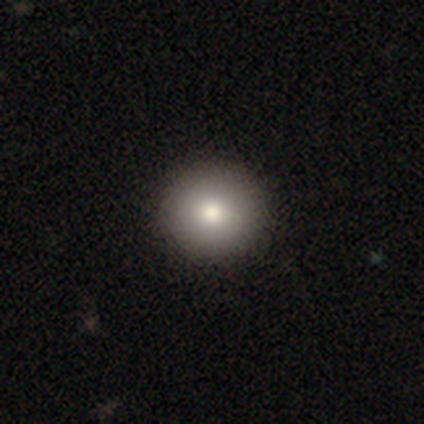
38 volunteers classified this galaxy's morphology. A smooth galaxy with no disk features (82%) that is round (84%).

Vote fractions:
- Smooth or featured? smooth: 82% / star or artifact: 11% / featured or disk: 8%
- How rounded? round: 84% / in between: 16% / cigar-shaped: 0%
- Merging? none: 65% / minor disturbance: 0% / major disturbance: 0% / merger: 0%